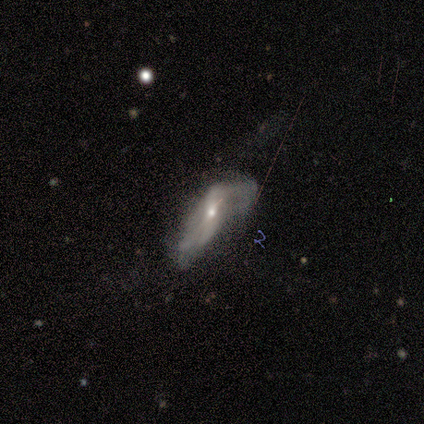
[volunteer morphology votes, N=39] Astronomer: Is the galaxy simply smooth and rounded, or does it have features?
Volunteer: featured or disk — 64%.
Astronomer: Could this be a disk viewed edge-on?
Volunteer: no — 88%.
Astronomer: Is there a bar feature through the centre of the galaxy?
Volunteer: no — 45% (runner-up: weak, 32%).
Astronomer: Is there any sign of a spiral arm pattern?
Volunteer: yes — 86%.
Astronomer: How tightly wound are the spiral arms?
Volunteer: loose — 95%.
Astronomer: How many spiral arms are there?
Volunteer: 2 — 63%.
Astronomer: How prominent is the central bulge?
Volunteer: small — 50% (runner-up: moderate, 45%).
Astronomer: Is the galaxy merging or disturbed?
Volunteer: major disturbance — 42% (runner-up: minor disturbance, 36%).